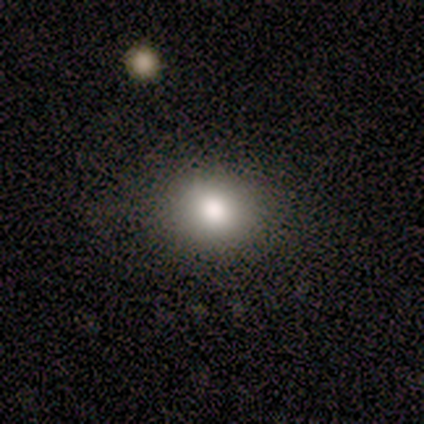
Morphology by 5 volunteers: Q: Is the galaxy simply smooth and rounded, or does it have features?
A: smooth — 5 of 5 (100%).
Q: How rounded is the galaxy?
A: round — 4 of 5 (80%).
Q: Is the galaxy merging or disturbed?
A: none — 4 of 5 (80%).